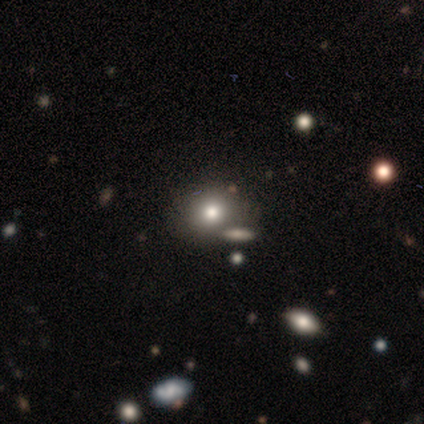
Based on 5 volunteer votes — A smooth galaxy with no disk features (80%) that is round (75%). Merging: none (80%).